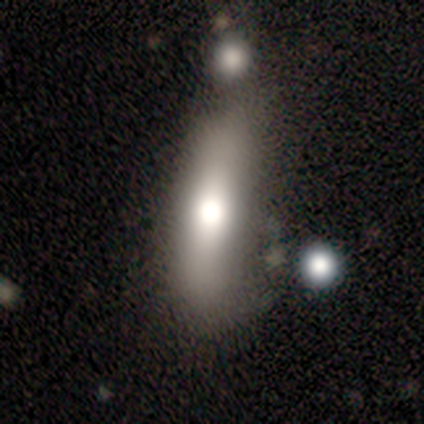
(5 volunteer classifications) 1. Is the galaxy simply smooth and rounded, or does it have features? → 80% smooth, 20% star or artifact, 0% featured or disk.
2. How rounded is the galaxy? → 75% cigar-shaped, 25% in between, 0% round.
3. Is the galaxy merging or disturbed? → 50% none, 25% minor disturbance, 25% merger, 0% major disturbance.